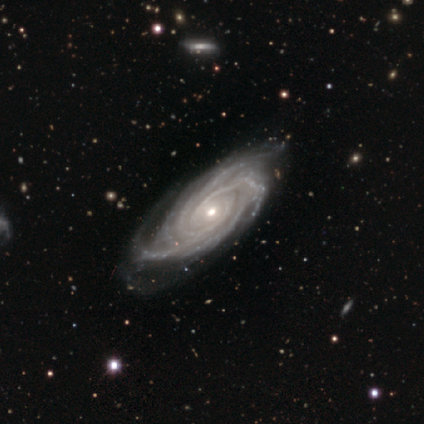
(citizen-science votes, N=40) A featured or disk galaxy (95%) with no bar (84%), 4 (32%) tight (95%) spiral arms (100%) and a moderate central bulge (50%).

Vote fractions:
- Smooth or featured? featured or disk: 95% / star or artifact: 5% / smooth: 0%
- Edge-on disk? no: 100% / yes: 0%
- Bar? no: 84% / strong: 13% / weak: 3%
- Spiral arms? yes: 100% / no: 0%
- Spiral winding? tight: 95% / medium: 5% / loose: 0%
- Spiral arm count? 4: 32% / 3: 24% / more than 4: 21% / can't tell: 13% / 2: 11% / 1: 0%
- Bulge size? moderate: 50% / small: 47% / large: 3% / dominant: 0% / none: 0%
- Merging? none: 45% / minor disturbance: 16% / major disturbance: 3% / merger: 0%